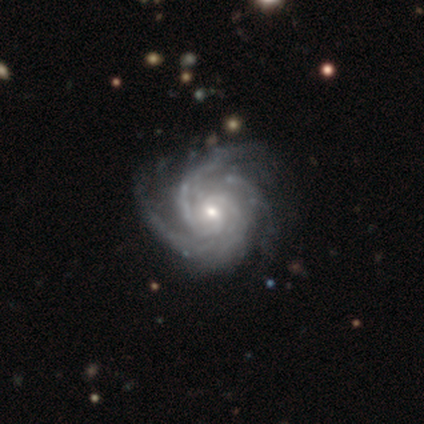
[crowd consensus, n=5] This is clearly a featured or disk galaxy (100%). It is clearly not viewed edge-on (100%). Bar: marginally weak (40%, tied with no). Spiral arm pattern: clearly yes (100%). Spiral arm count: marginally 2 (40%, tied with can't tell). Spiral winding: likely medium (60%). Central bulge: clearly small (80%). Merging: clearly none (80%).